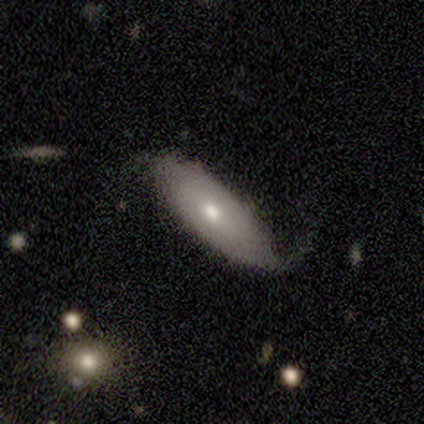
Q: Smooth or featured?
A: featured or disk (80%); runner-up: smooth (20%)
Q: Edge-on disk?
A: no (75%); runner-up: yes (25%)
Q: Bar?
A: no (67%); runner-up: strong (33%)
Q: Spiral arms?
A: yes (67%); runner-up: no (33%)
Q: Spiral winding?
A: tight (50%); tied with: loose (50%)
Q: Spiral arm count?
A: 2 (50%); tied with: can't tell (50%)
Q: Bulge size?
A: moderate (100%)
Q: Merging?
A: minor disturbance (60%); runner-up: none (40%)